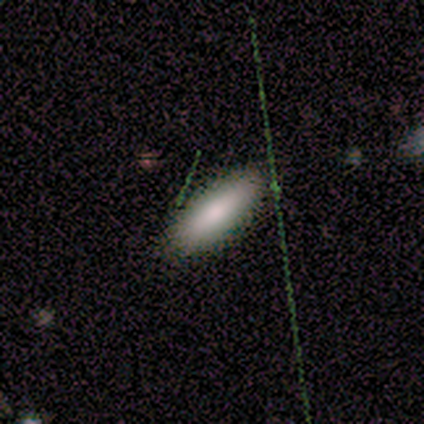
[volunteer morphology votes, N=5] Smooth or featured: smooth — 80% (featured or disk — 20%)
How rounded: in between — 75% (cigar-shaped — 25%)
Merging: none — 80% (minor disturbance — 20%)